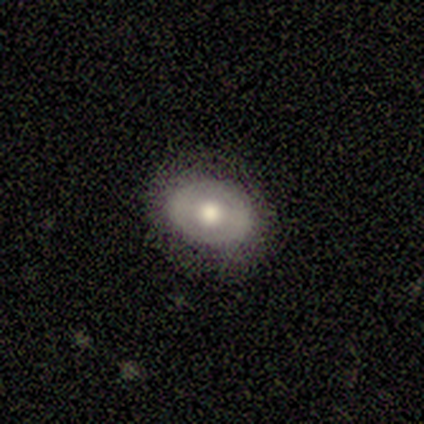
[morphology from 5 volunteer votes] A smooth galaxy with no disk features (60%) that is in between round and cigar-shaped (100%).

Vote fractions:
- Smooth or featured? smooth: 60% / featured or disk: 20% / star or artifact: 20%
- How rounded? in between: 100% / round: 0% / cigar-shaped: 0%
- Merging? none: 50% / minor disturbance: 25% / major disturbance: 25% / merger: 0%